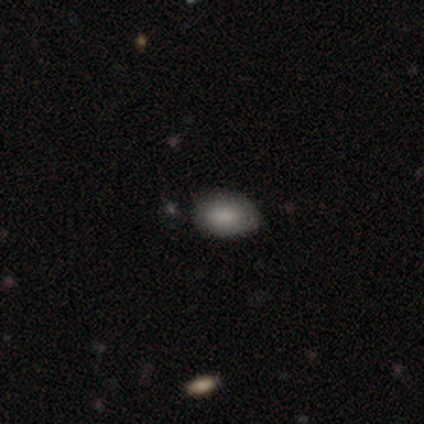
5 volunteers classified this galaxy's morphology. Smooth or featured?
  - smooth: 100% *
  - featured or disk: 0%
  - star or artifact: 0%
How rounded?
  - in between: 80% *
  - round: 20%
  - cigar-shaped: 0%
Merging?
  - none: 80% *
  - minor disturbance: 20%
  - major disturbance: 0%
  - merger: 0%